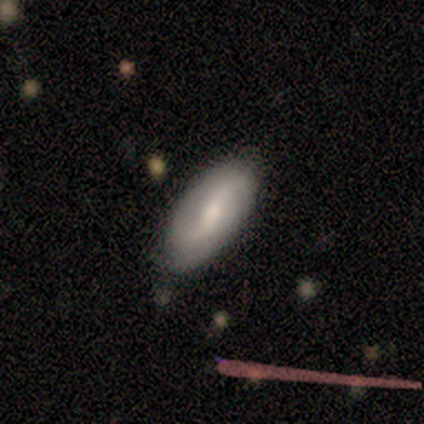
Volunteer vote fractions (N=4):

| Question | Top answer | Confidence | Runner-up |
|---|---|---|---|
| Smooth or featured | smooth | 100% | — |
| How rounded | in between | 100% | — |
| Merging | none | 75% | minor disturbance (25%) |